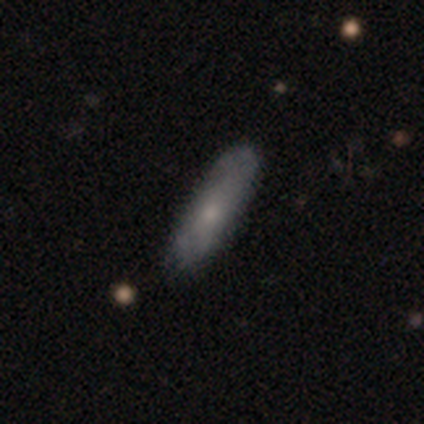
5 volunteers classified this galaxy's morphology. Q: Smooth or featured?
A: smooth (60%); runner-up: featured or disk (20%)
Q: How rounded?
A: cigar-shaped (67%); runner-up: in between (33%)
Q: Merging?
A: none (100%)